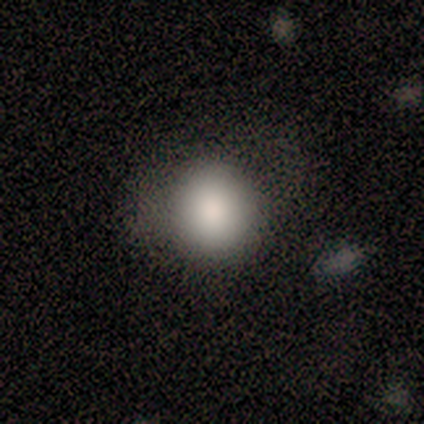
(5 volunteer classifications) smooth-or-featured: smooth: 100% | featured or disk: 0% | star or artifact: 0%
  how-rounded: round: 80% | in between: 20% | cigar-shaped: 0%
  merging: none: 60% | minor disturbance: 40% | major disturbance: 0% | merger: 0%